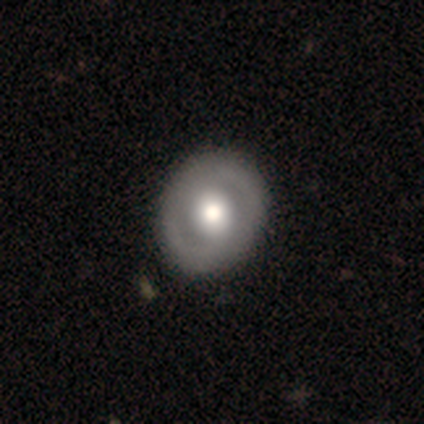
Smooth or featured? 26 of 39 (67%) said featured or disk. Edge-on disk? 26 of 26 (100%) said no. Bar? 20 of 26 (77%) said no. Spiral arms? 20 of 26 (77%) said no. Bulge size? 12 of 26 (46%) said large. Merging? 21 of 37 (57%) said none.